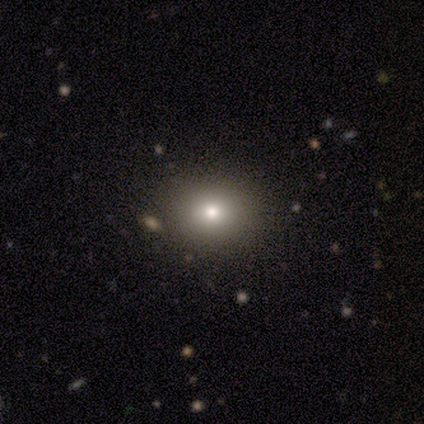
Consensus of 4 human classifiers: Morphology: type=smooth (50%, tied with star or artifact); roundness=round (50%, tied with in between); merging=none (50%, tied with minor disturbance).